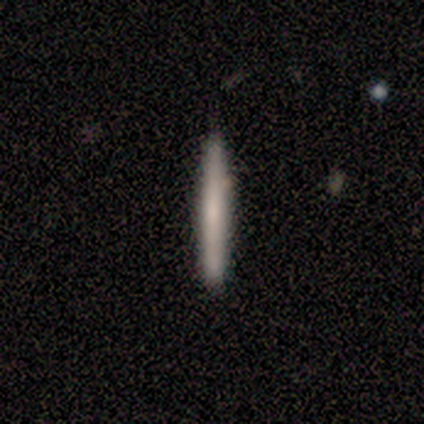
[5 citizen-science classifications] Overall: smooth (60%; featured or disk 40%). How rounded: cigar-shaped (67%; in between 33%). Merging: none (100%).